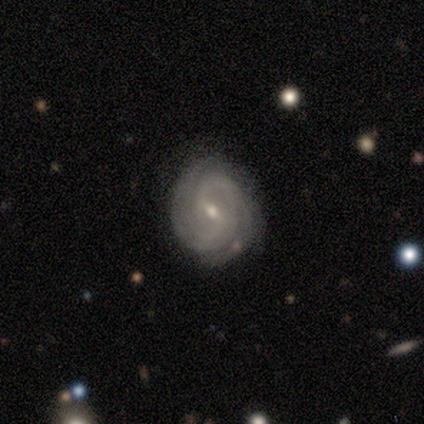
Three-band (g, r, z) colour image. It shows a featured or disk galaxy (87%) with a weak bar (61%), 2 (53%) tight (53%) spiral arms (97%) and a small central bulge (61%). Merging: none (83%).